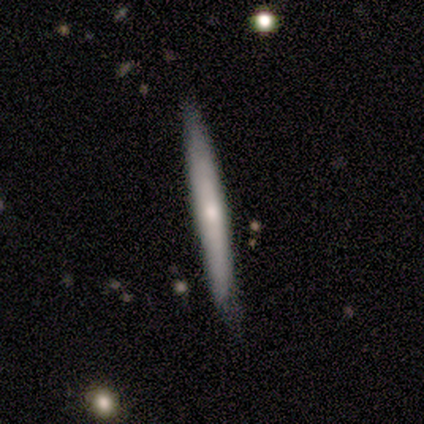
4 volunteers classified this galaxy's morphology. Smooth or featured? 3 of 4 (75%) said smooth. How rounded? 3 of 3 (100%) said cigar-shaped. Merging? 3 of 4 (75%) said minor disturbance.